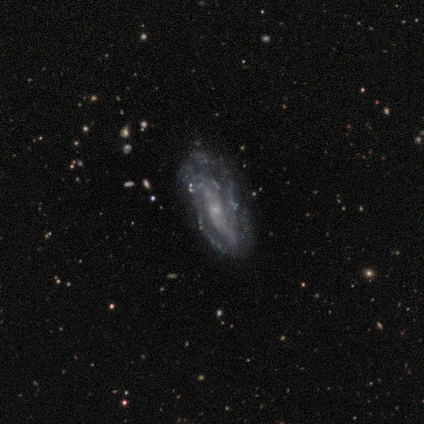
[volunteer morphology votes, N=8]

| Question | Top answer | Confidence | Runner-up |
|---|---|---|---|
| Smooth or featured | featured or disk | 62% | smooth (38%) |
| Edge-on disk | no | 100% | — |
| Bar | no | 80% | strong (20%) |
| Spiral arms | yes | 60% | no (40%) |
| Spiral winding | loose | 100% | — |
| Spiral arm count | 2 | 67% | can't tell (33%) |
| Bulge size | small | 80% | moderate (20%) |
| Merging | none | 50% | minor disturbance (25%) |